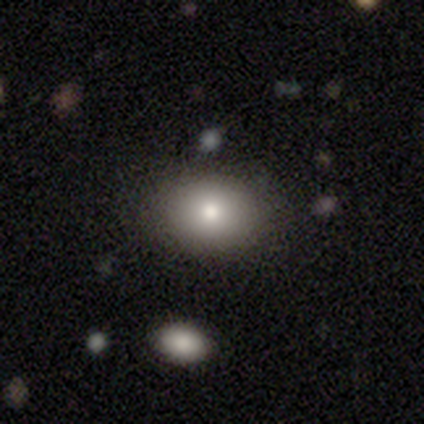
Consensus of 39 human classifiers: smooth 85%, featured or disk 10%, star or artifact 5%. Down the decision tree: how rounded — in between (67%); merging — none (89%).